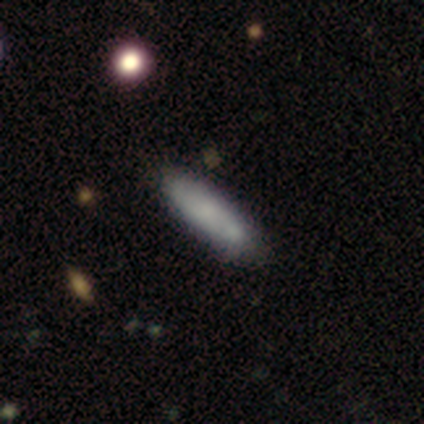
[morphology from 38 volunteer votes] A smooth galaxy with no disk features (66%) that is cigar-shaped (76%).

Vote fractions:
- Smooth or featured? smooth: 66% / featured or disk: 34% / star or artifact: 0%
- How rounded? cigar-shaped: 76% / in between: 24% / round: 0%
- Merging? none: 66% / minor disturbance: 21% / major disturbance: 8% / merger: 5%